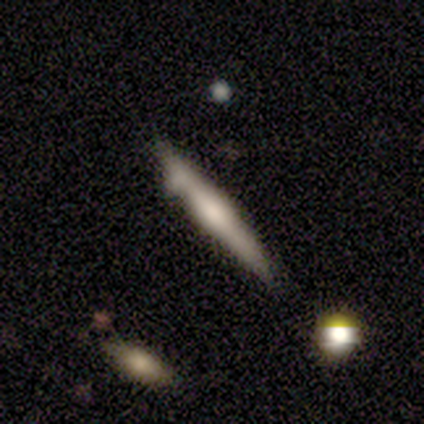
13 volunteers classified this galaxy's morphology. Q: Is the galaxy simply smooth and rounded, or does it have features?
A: featured or disk — 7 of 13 (54%).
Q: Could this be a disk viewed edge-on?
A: yes — 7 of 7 (100%).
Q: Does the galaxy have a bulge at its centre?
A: rounded — 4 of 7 (57%).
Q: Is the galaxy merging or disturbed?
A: none — 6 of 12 (50%).